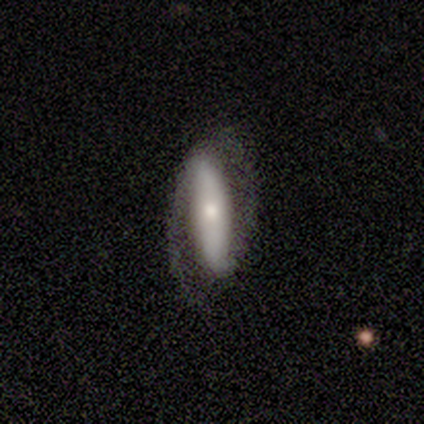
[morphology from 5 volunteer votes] Q: Smooth or featured?
A: featured or disk (100%)
Q: Edge-on disk?
A: no (80%); runner-up: yes (20%)
Q: Bar?
A: strong (75%); runner-up: no (25%)
Q: Spiral arms?
A: yes (75%); runner-up: no (25%)
Q: Spiral winding?
A: medium (67%); runner-up: tight (33%)
Q: Spiral arm count?
A: 2 (67%); runner-up: 1 (33%)
Q: Bulge size?
A: moderate (50%); tied with: small (50%)
Q: Merging?
A: none (40%); tied with: major disturbance (40%)